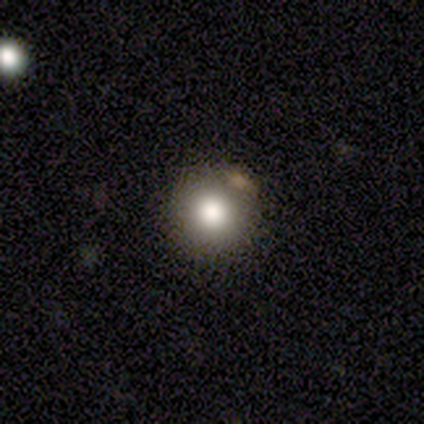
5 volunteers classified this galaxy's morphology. A smooth galaxy with no disk features (80%) that is round (75%).

Vote fractions:
- Smooth or featured? smooth: 80% / star or artifact: 20% / featured or disk: 0%
- How rounded? round: 75% / in between: 25% / cigar-shaped: 0%
- Merging? none: 75% / minor disturbance: 25% / major disturbance: 0% / merger: 0%